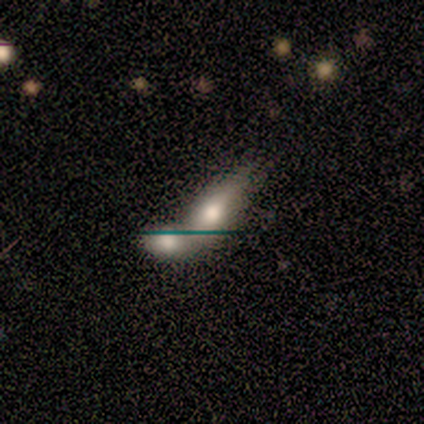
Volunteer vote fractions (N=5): Smooth or featured? smooth (60%)
How rounded? in between (100%)
Merging? merger (60%)